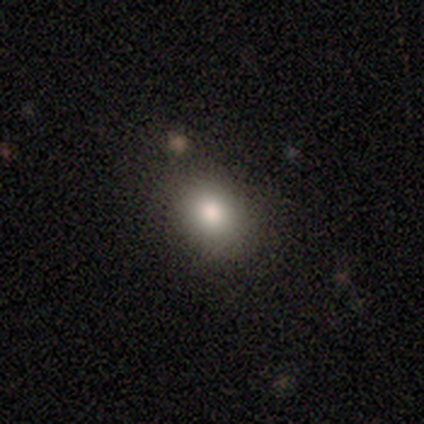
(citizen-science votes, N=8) Smooth or featured: smooth — 50% (featured or disk — 38%)
How rounded: round — 50% (tied with in between — 50%)
Merging: none — 86% (merger — 14%)